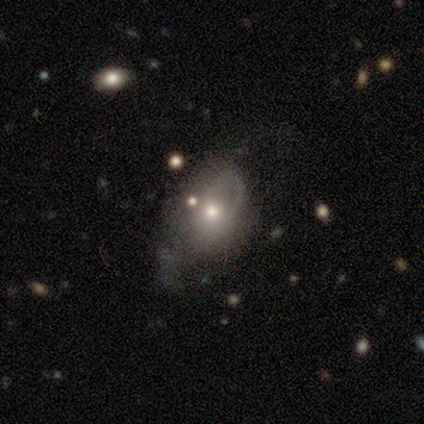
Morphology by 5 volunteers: Smooth or featured: smooth — 60% (featured or disk — 40%)
How rounded: in between — 67% (round — 33%)
Merging: major disturbance — 60% (minor disturbance — 20%)